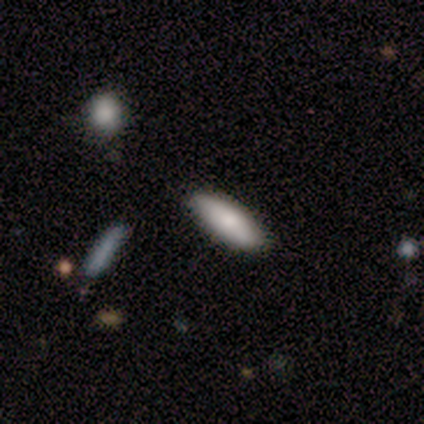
Overall: smooth (60%; featured or disk 40%). How rounded: in between (67%; cigar-shaped 33%). Merging: none (100%).